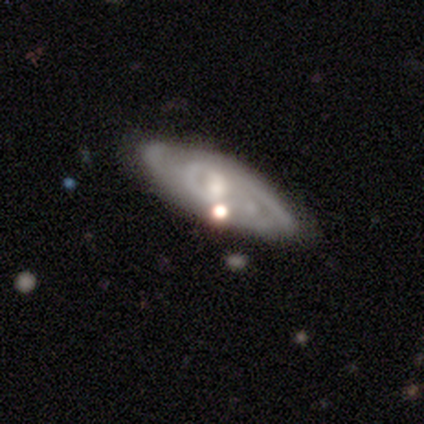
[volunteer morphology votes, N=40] A featured or disk galaxy (92%) with no bar (48%), 2 (45%) tight (55%) spiral arms (88%) and a moderate central bulge (42%). Merging: none (61%).